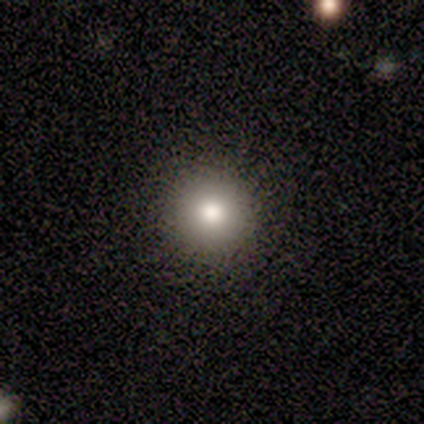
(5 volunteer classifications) smooth-or-featured: smooth: 40% (tied) | featured or disk: 40% (tied) | star or artifact: 20%
  how-rounded: round: 100% | in between: 0% | cigar-shaped: 0%
  merging: none: 100% | minor disturbance: 0% | major disturbance: 0% | merger: 0%